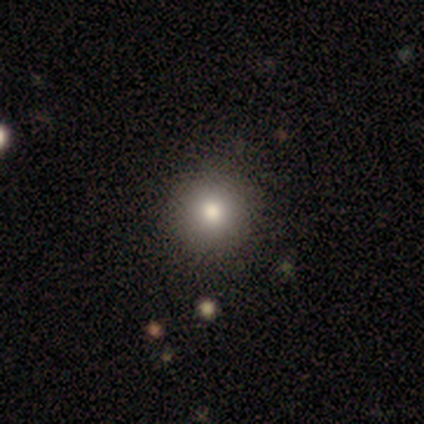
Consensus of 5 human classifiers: Smooth or featured? 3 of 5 (60%) said smooth. How rounded? 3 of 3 (100%) said round. Merging? 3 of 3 (100%) said none.